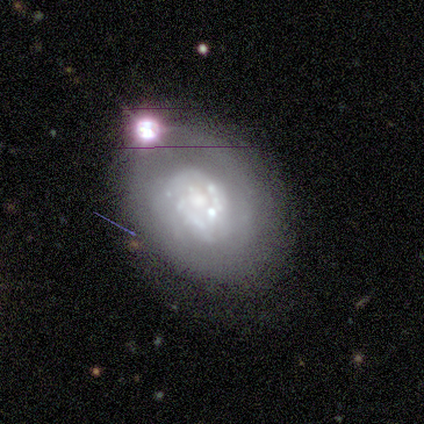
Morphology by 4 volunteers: This appears to be a featured or disk galaxy (100%) with no bar (100%), no spiral arms (75%) and a large central bulge (50%, tied with moderate). Merging: minor disturbance (75%).